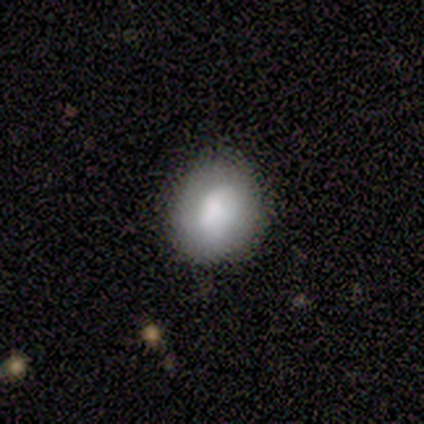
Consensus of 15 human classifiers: smooth-or-featured: smooth: 73% | featured or disk: 20% | star or artifact: 7%
  how-rounded: round: 82% | in between: 18% | cigar-shaped: 0%
  merging: none: 71% | minor disturbance: 29% | major disturbance: 0% | merger: 0%